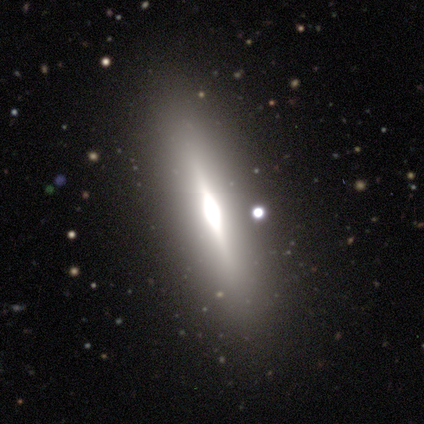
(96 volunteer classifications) featured or disk 76%, smooth 17%, star or artifact 7%. Down the decision tree: edge-on disk — yes (92%); edge-on bulge — rounded (70%); merging — none (79%).